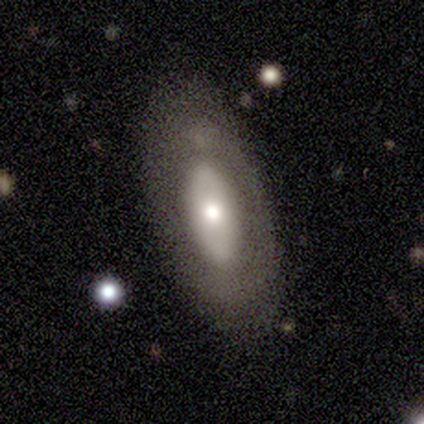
Smooth or featured?
  - featured or disk: 55% *
  - smooth: 36%
  - star or artifact: 9%
Edge-on disk?
  - no: 100% *
  - yes: 0%
Bar?
  - no: 83% *
  - weak: 17%
  - strong: 0%
Spiral arms?
  - no: 100% *
  - yes: 0%
Bulge size?
  - moderate: 50% *
  - small: 33%
  - large: 17%
  - dominant: 0%
  - none: 0%
Merging?
  - none: 100% *
  - minor disturbance: 0%
  - major disturbance: 0%
  - merger: 0%